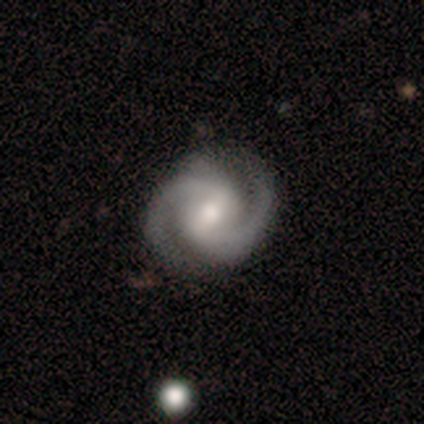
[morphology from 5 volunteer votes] This appears to be a featured or disk galaxy (100%) with a weak bar (60%), 2 (100%) medium (80%) spiral arms (100%) and a moderate central bulge (80%). Merging: none (100%).